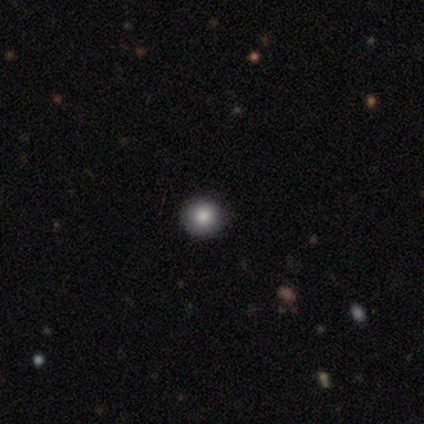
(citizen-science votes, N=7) A smooth galaxy with no disk features (57%) that is round (100%). Merging: none (80%).